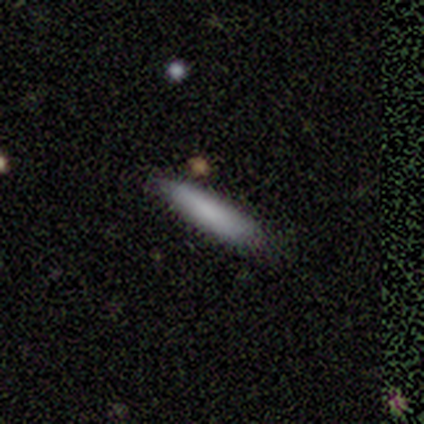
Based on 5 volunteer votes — Smooth or featured: smooth — 100%
How rounded: cigar-shaped — 100%
Merging: none — 100%